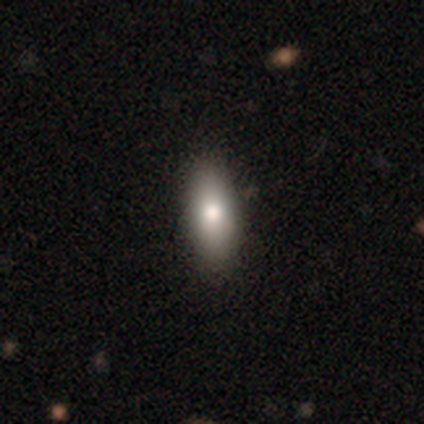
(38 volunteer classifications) smooth-or-featured: smooth: 74% | featured or disk: 18% | star or artifact: 8%
  how-rounded: in between: 86% | cigar-shaped: 14% | round: 0%
  merging: none: 63% | minor disturbance: 11% | major disturbance: 0% | merger: 0%